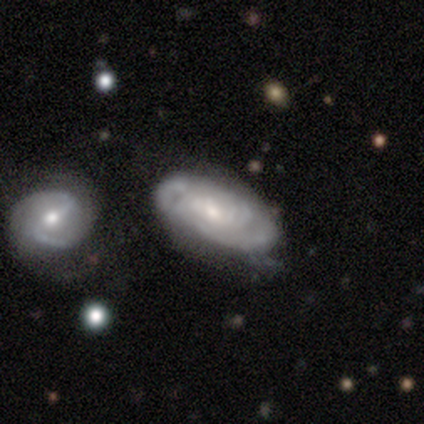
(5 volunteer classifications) featured or disk 100%, smooth 0%, star or artifact 0%. Down the decision tree: edge-on disk — no (100%); bar — no (60%); spiral arms — yes (100%); spiral arm count — can't tell (80%); spiral winding — loose (60%); bulge size — moderate (60%); merging — none (40%, tied with merger).